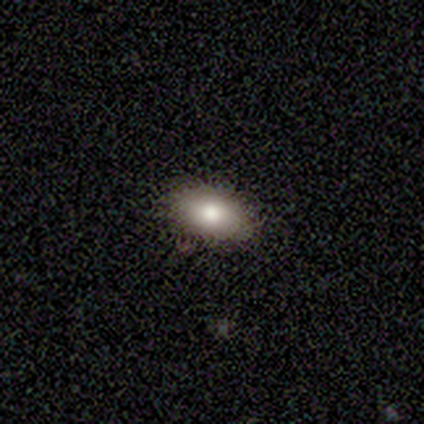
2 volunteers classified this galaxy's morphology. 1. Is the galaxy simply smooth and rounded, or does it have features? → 100% smooth, 0% featured or disk, 0% star or artifact.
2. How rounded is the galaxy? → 100% in between, 0% round, 0% cigar-shaped.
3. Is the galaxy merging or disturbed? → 50% none (tied), 50% major disturbance (tied), 0% minor disturbance, 0% merger.